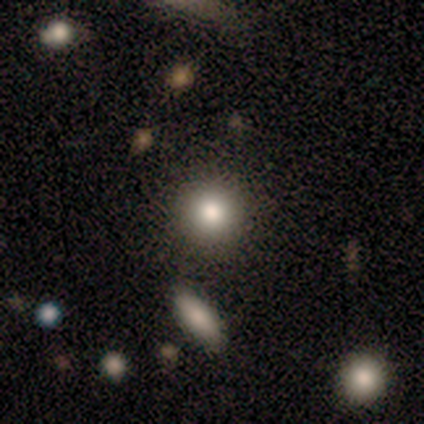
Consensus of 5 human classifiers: A smooth galaxy with no disk features (100%) that is round (100%). Merging: none (100%).